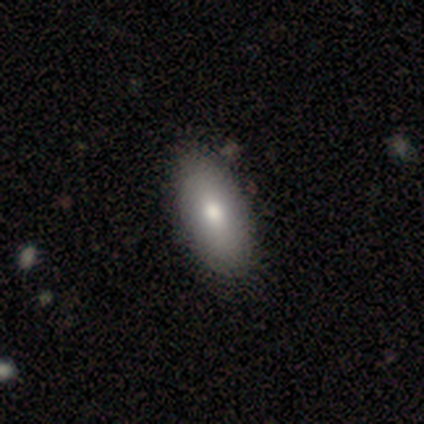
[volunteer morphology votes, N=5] Smooth or featured: smooth — 80% (featured or disk — 20%)
How rounded: in between — 100%
Merging: none — 80% (minor disturbance — 20%)